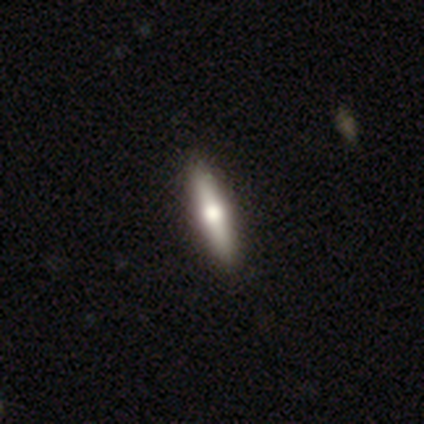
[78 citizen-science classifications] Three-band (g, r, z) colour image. It shows a featured or disk galaxy (55%) viewed edge-on (98%) with a rounded central bulge (100%). Merging: none (54%).